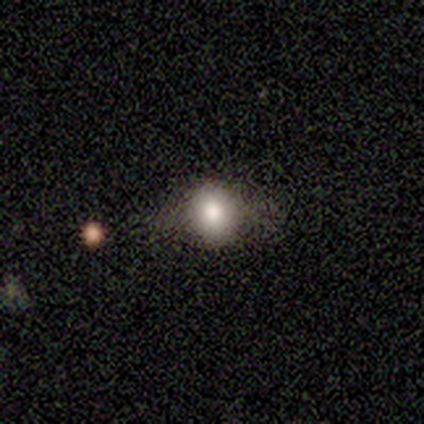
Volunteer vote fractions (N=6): smooth_or_featured: smooth (p=0.67) [alt: featured or disk p=0.17]
how_rounded: round (p=0.75) [alt: in between p=0.25]
merging: none (p=0.80) [alt: minor disturbance p=0.20]